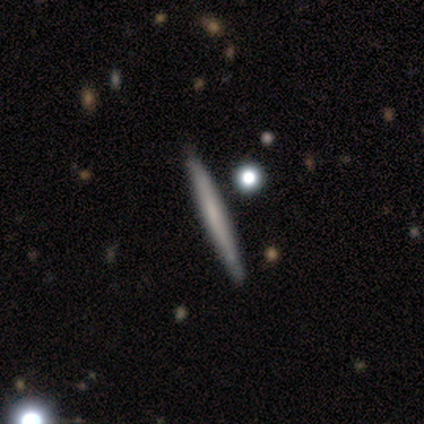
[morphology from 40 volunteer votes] This appears to be a featured or disk galaxy (50%) viewed edge-on (100%) with no central bulge (90%). Merging: none (63%).